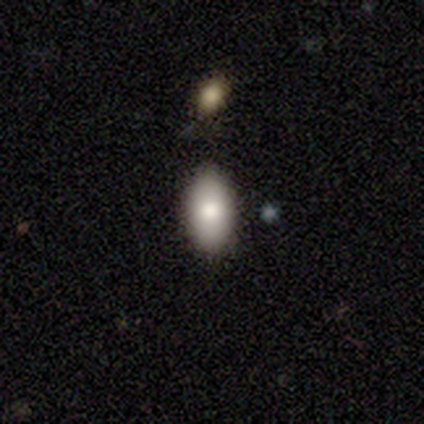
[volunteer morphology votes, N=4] smooth_or_featured: smooth (p=1.00)
how_rounded: in between (p=0.75) [alt: cigar-shaped p=0.25]
merging: none (p=1.00)